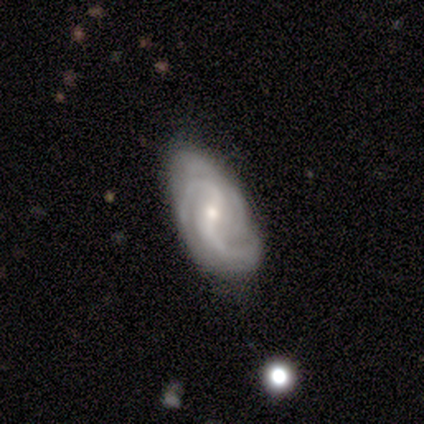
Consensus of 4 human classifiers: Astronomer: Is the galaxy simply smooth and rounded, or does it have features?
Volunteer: featured or disk — 100%.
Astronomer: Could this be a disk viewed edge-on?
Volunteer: no — 100%.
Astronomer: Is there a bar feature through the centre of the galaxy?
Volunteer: weak — 75%.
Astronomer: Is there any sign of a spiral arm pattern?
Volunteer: yes — 100%.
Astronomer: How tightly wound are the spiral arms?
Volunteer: loose — 50%.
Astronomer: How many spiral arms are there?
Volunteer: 2 — 75%.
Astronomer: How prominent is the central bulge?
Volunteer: small — 75%.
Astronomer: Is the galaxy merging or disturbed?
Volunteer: none — 75%.